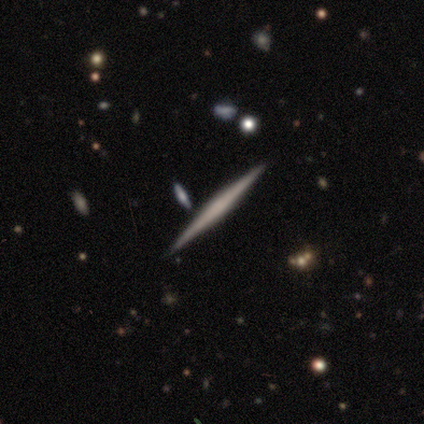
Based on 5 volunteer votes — smooth_or_featured: featured or disk (p=0.80) [alt: smooth p=0.20]
disk_edge_on: yes (p=1.00)
edge_on_bulge: none (p=0.50) [alt: boxy p=0.25]
merging: none (p=0.80) [alt: minor disturbance p=0.20]